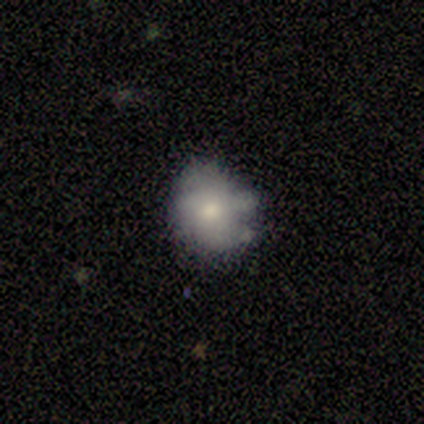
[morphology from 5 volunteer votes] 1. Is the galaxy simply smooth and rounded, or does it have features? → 60% smooth, 40% featured or disk, 0% star or artifact.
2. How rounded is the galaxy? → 67% in between, 33% round, 0% cigar-shaped.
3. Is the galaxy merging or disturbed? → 60% none, 40% minor disturbance, 0% major disturbance, 0% merger.